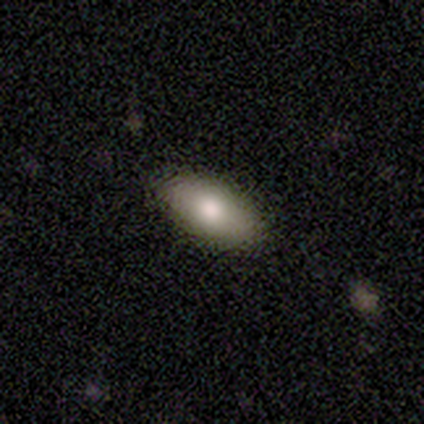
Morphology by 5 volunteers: smooth-or-featured: smooth: 80% | featured or disk: 20% | star or artifact: 0%
  how-rounded: in between: 100% | round: 0% | cigar-shaped: 0%
  merging: none: 100% | minor disturbance: 0% | major disturbance: 0% | merger: 0%